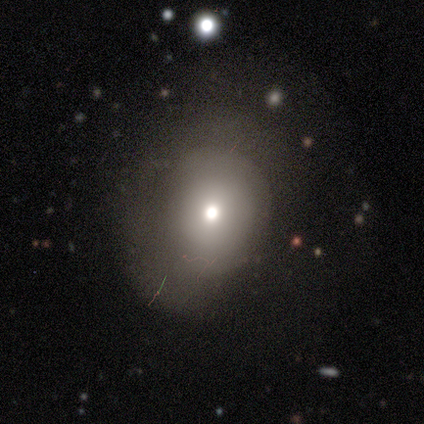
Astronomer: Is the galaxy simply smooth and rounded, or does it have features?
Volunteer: smooth — 77%.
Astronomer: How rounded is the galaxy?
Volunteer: round — 83%.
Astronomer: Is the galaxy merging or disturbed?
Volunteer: none — 85%.